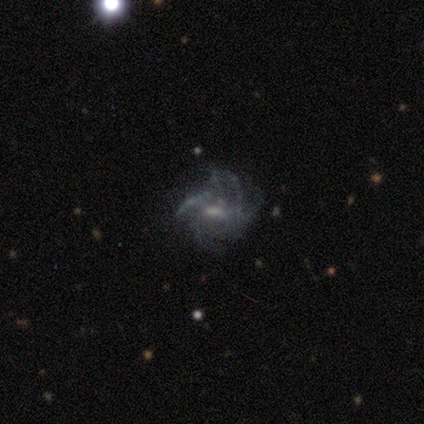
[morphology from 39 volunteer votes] Smooth or featured? featured or disk (79%)
Edge-on disk? no (100%)
Bar? weak (58%)
Spiral arms? yes (90%)
Spiral winding? tight (54%)
Spiral arm count? more than 4 (36%)
Bulge size? moderate (52%)
Merging? none (60%)